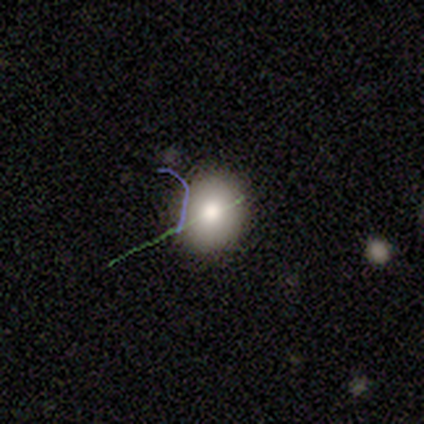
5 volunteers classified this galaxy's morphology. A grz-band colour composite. It shows a smooth galaxy with no disk features (60%) that is round (100%). Merging: none (100%).